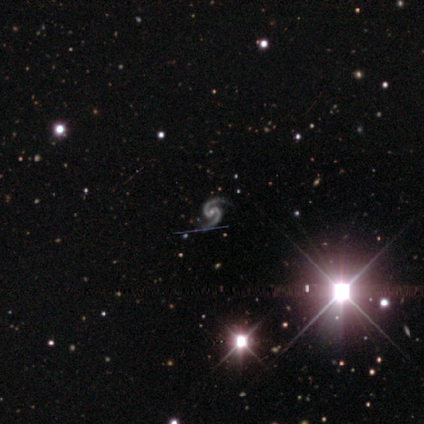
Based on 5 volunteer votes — This is clearly a featured or disk galaxy (100%). It is clearly not viewed edge-on (100%). Bar: clearly weak (80%). Spiral arm pattern: clearly yes (100%). Spiral arm count: clearly 2 (100%). Spiral winding: clearly medium (80%). Central bulge: likely small (60%). Merging: clearly none (80%).